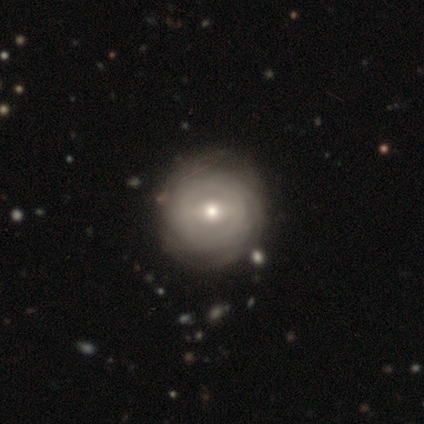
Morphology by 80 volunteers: Smooth or featured? 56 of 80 (70%) said featured or disk. Edge-on disk? 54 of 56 (96%) said no. Bar? 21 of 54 (39%) said weak. Spiral arms? 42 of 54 (78%) said yes. Spiral winding? 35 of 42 (83%) said tight. Spiral arm count? 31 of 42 (74%) said can't tell. Bulge size? 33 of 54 (61%) said moderate. Merging? 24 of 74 (32%) said none.